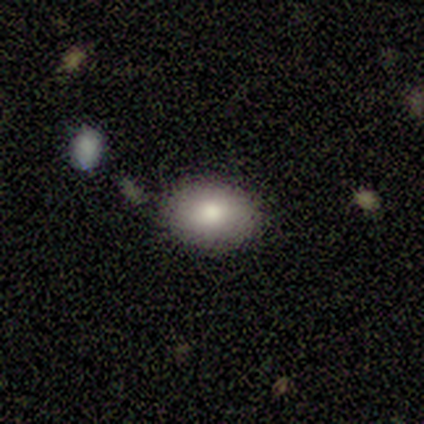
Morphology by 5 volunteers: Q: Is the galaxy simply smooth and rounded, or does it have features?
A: smooth — 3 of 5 (60%).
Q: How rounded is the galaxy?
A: round — 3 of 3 (100%).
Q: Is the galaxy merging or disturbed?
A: none — 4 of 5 (80%).